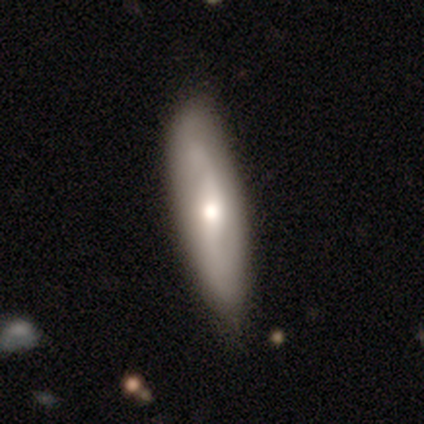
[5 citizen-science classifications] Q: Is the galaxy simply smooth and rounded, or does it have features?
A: smooth — 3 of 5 (60%).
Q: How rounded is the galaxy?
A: in between — 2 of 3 (67%).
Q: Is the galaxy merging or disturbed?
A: none — 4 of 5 (80%).